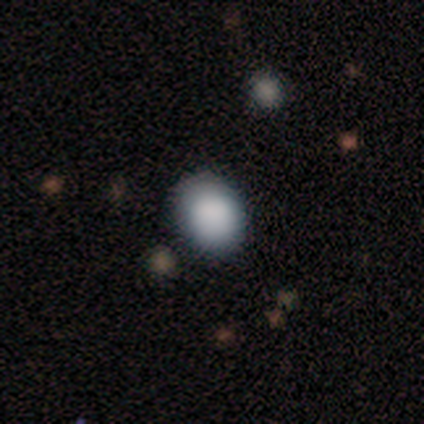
Volunteers were most divided on "how rounded": round: 75%, in between: 25%, cigar-shaped: 0%. More confident: smooth or featured — smooth (80%); merging — none (75%).